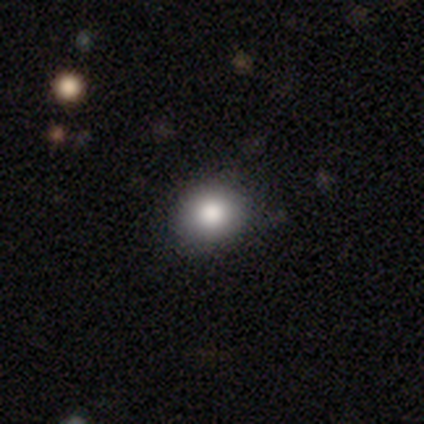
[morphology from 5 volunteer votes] Smooth or featured? 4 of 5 (80%) said smooth. How rounded? 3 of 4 (75%) said round. Merging? 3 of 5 (60%) said none.